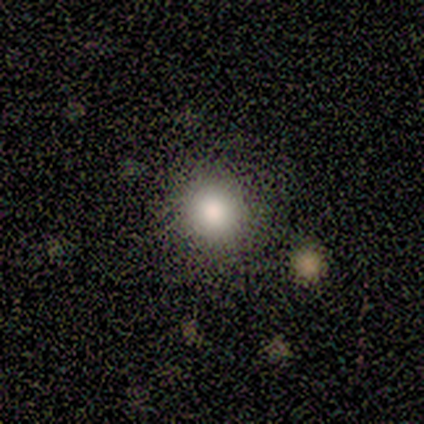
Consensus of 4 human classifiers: Smooth or featured: smooth — 75% (featured or disk — 25%)
How rounded: round — 100%
Merging: none — 50% (minor disturbance — 25%)